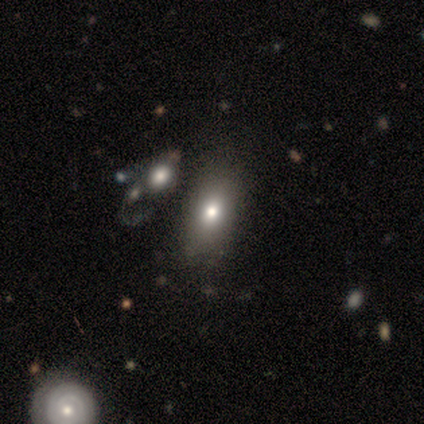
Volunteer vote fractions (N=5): This appears to be a smooth galaxy with no disk features (40%, tied with star or artifact) that is in between round and cigar-shaped (100%). Merging: none (67%).